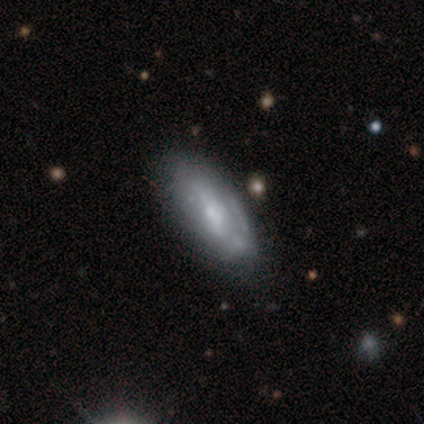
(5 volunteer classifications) Q: Smooth or featured?
A: featured or disk (60%); runner-up: smooth (20%)
Q: Edge-on disk?
A: no (67%); runner-up: yes (33%)
Q: Bar?
A: weak (50%); tied with: no (50%)
Q: Spiral arms?
A: yes (100%)
Q: Spiral winding?
A: tight (50%); tied with: loose (50%)
Q: Spiral arm count?
A: 2 (100%)
Q: Bulge size?
A: moderate (100%)
Q: Merging?
A: none (75%); runner-up: major disturbance (25%)